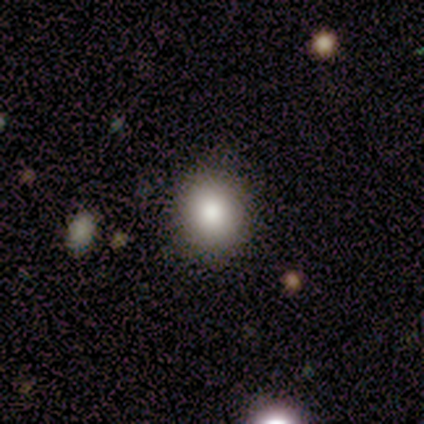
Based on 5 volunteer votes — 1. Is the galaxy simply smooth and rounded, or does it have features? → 100% smooth, 0% featured or disk, 0% star or artifact.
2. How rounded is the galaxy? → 80% round, 20% in between, 0% cigar-shaped.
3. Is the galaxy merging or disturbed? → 80% none, 20% minor disturbance, 0% major disturbance, 0% merger.